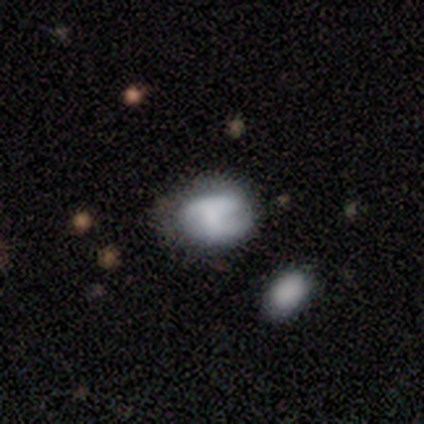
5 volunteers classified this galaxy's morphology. type=smooth (60%); roundness=in between (100%); merging=none (60%).